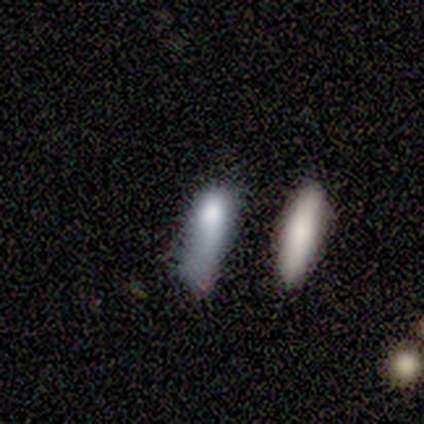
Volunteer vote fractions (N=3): A smooth galaxy with no disk features (100%) that is cigar-shaped (67%).

Vote fractions:
- Smooth or featured? smooth: 100% / featured or disk: 0% / star or artifact: 0%
- How rounded? cigar-shaped: 67% / in between: 33% / round: 0%
- Merging? major disturbance: 67% / minor disturbance: 33% / none: 0% / merger: 0%